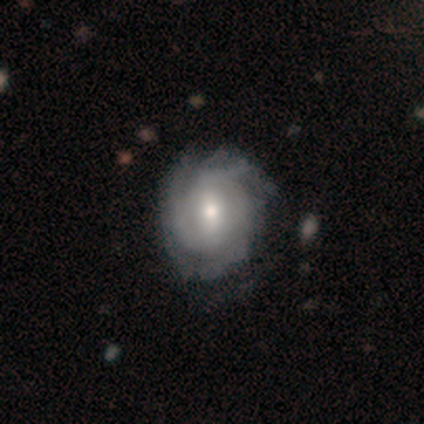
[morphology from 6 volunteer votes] type=featured or disk (50%); edge-on=no (100%); bar=no (67%); spiral arms=yes (100%); winding=tight (67%); arm count=can't tell (67%); bulge=dominant (33%, tied with moderate and small); merging=none (100%).